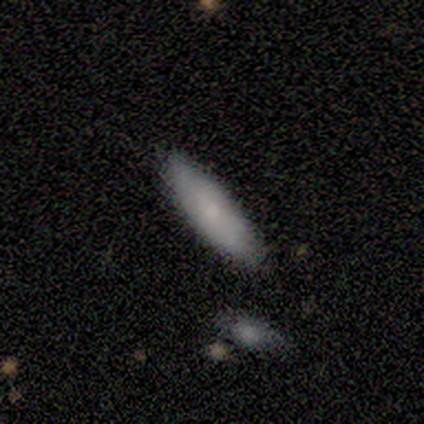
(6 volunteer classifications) smooth_or_featured: smooth (p=1.00)
how_rounded: cigar-shaped (p=0.67) [alt: in between p=0.33]
merging: none (p=1.00)